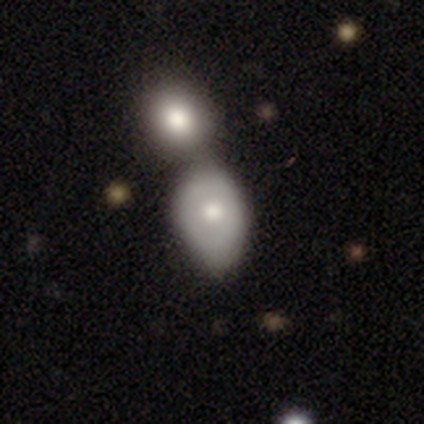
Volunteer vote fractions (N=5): Smooth or featured?
  - featured or disk: 60% *
  - smooth: 40%
  - star or artifact: 0%
Edge-on disk?
  - no: 100% *
  - yes: 0%
Bar?
  - no: 100% *
  - strong: 0%
  - weak: 0%
Spiral arms?
  - no: 100% *
  - yes: 0%
Bulge size?
  - large: 33% * (tied)
  - moderate: 33% * (tied)
  - small: 33% * (tied)
  - dominant: 0%
  - none: 0%
Merging?
  - merger: 80% *
  - minor disturbance: 20%
  - none: 0%
  - major disturbance: 0%